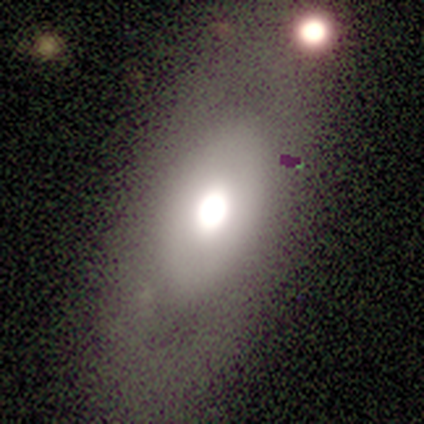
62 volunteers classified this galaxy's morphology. Overall: smooth (50%; featured or disk 44%). How rounded: in between (94%). Merging: none (62%).